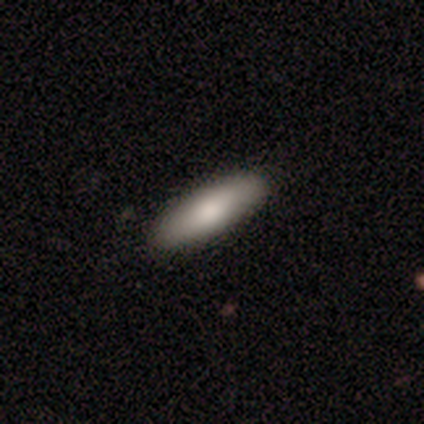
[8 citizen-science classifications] A smooth galaxy with no disk features (88%) that is cigar-shaped (57%). Merging: none (86%).